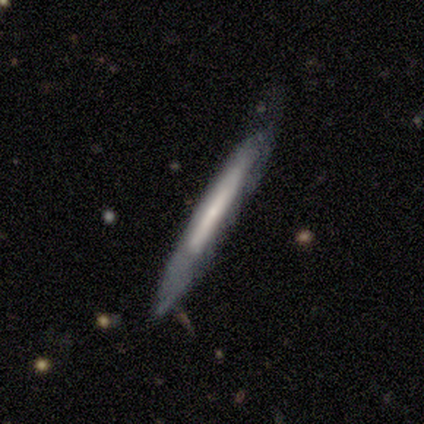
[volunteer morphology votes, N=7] Q: Smooth or featured?
A: smooth (71%); runner-up: featured or disk (29%)
Q: How rounded?
A: cigar-shaped (100%)
Q: Merging?
A: none (29%); tied with: minor disturbance (29%); major disturbance (29%)